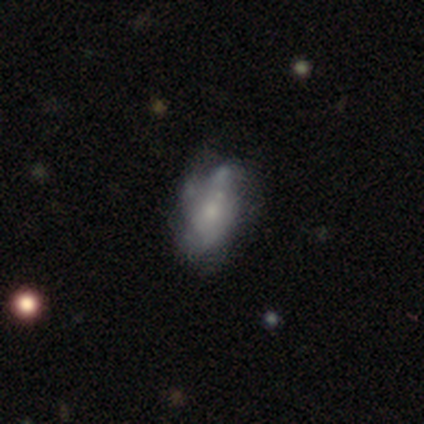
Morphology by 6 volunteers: Smooth or featured: featured or disk — 83% (smooth — 17%)
Edge-on disk: no — 100%
Bar: no — 100%
Spiral arms: yes — 60% (no — 40%)
Spiral winding: medium — 67% (loose — 33%)
Spiral arm count: can't tell — 100%
Bulge size: moderate — 80% (small — 20%)
Merging: none — 33% (tied with minor disturbance — 33%)